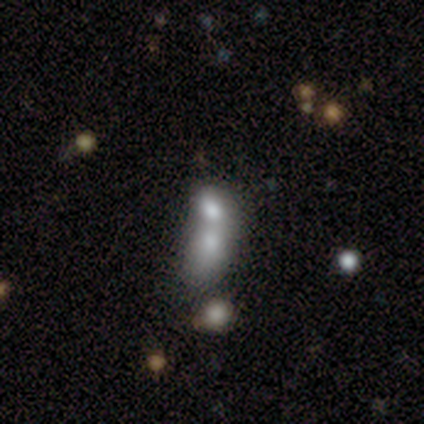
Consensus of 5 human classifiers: A smooth galaxy with no disk features (60%) that is in between round and cigar-shaped (100%). Merging: merger (100%).